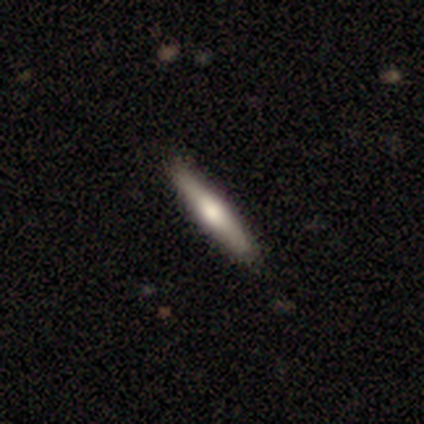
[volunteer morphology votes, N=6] smooth_or_featured: featured or disk (p=0.50) [alt: smooth p=0.33]
disk_edge_on: yes (p=0.67) [alt: no p=0.33]
edge_on_bulge: rounded (p=1.00)
merging: none (p=1.00)